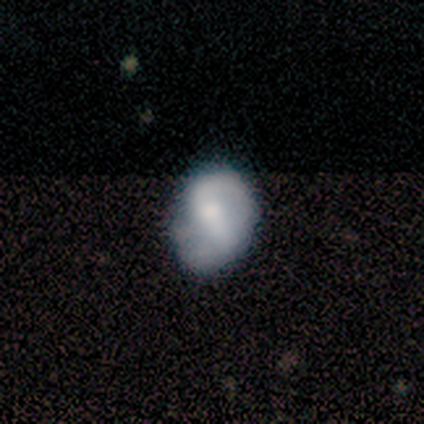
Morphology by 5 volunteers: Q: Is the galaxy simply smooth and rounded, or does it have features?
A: smooth — 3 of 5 (60%).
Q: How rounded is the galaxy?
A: in between — 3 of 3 (100%).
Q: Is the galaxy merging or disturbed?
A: none — 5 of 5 (100%).